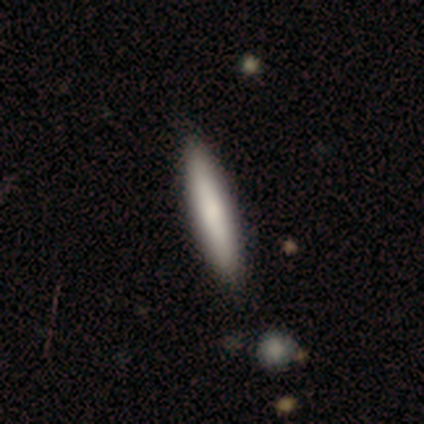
Smooth or featured: smooth — 63% (featured or disk — 26%)
How rounded: cigar-shaped — 88% (in between — 12%)
Merging: none — 56% (merger — 6%)